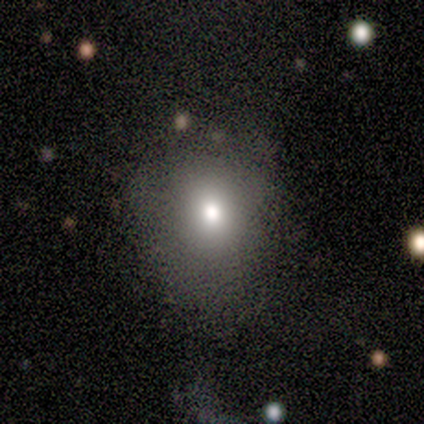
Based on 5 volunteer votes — smooth 80%, featured or disk 20%, star or artifact 0%. Down the decision tree: how rounded — round (50%, tied with in between); merging — none (80%).